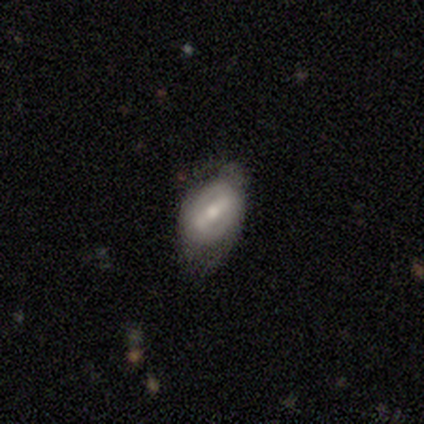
Smooth or featured? 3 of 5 (60%) said featured or disk. Edge-on disk? 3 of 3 (100%) said no. Bar? 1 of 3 (33%, tied with weak and no) said strong. Spiral arms? 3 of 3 (100%) said yes. Spiral winding? 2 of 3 (67%) said tight. Spiral arm count? 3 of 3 (100%) said 2. Bulge size? 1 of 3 (33%, tied with moderate and small) said large. Merging? 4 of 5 (80%) said none.